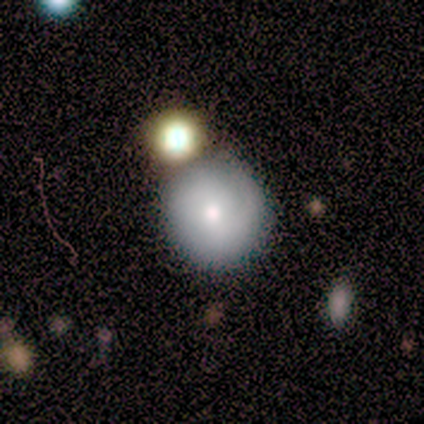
A smooth galaxy with no disk features (60%) that is round (67%). Merging: none (100%).